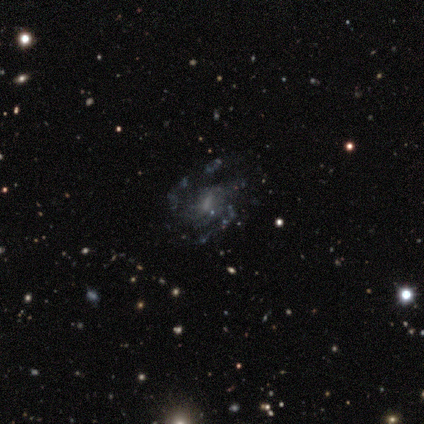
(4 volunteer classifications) This appears to be a featured or disk galaxy (100%) with a weak bar (50%), 3 (75%) loose (75%) spiral arms (100%) and a small central bulge (50%). Merging: none (100%).